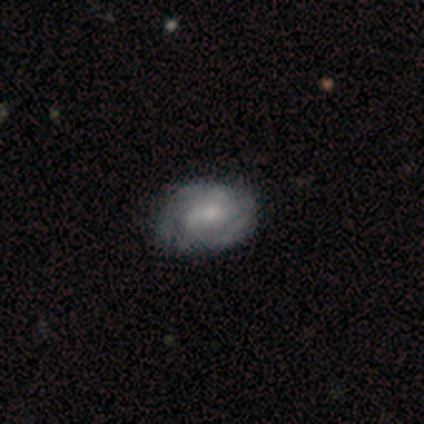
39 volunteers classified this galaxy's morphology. Smooth or featured: featured or disk — 62% (smooth — 31%)
Edge-on disk: no — 96% (yes — 4%)
Bar: weak — 48% (no — 39%)
Spiral arms: yes — 91% (no — 9%)
Spiral winding: tight — 52% (medium — 48%)
Spiral arm count: can't tell — 52% (2 — 19%)
Bulge size: moderate — 52% (small — 39%)
Merging: none — 69% (minor disturbance — 25%)